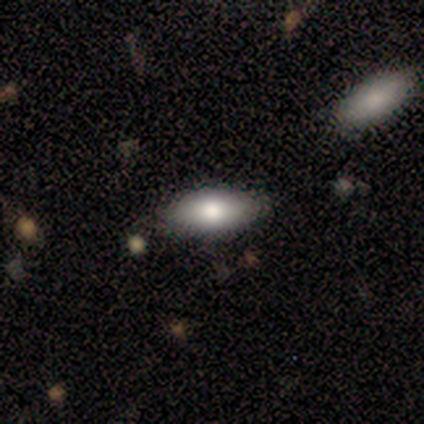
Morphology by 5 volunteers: Smooth or featured?
  - smooth: 80% *
  - featured or disk: 20%
  - star or artifact: 0%
How rounded?
  - in between: 50% * (tied)
  - cigar-shaped: 50% * (tied)
  - round: 0%
Merging?
  - none: 100% *
  - minor disturbance: 0%
  - major disturbance: 0%
  - merger: 0%